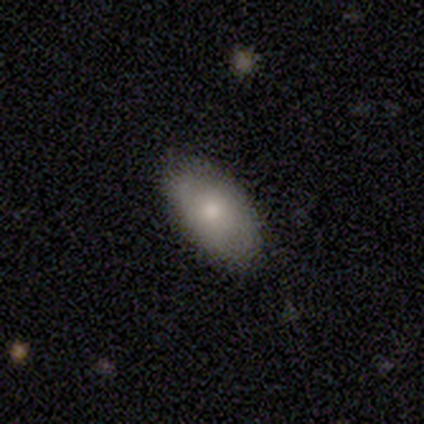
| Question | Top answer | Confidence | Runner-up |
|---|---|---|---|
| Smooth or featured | smooth | 60% | featured or disk (40%) |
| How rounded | in between | 100% | — |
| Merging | none | 100% | — |